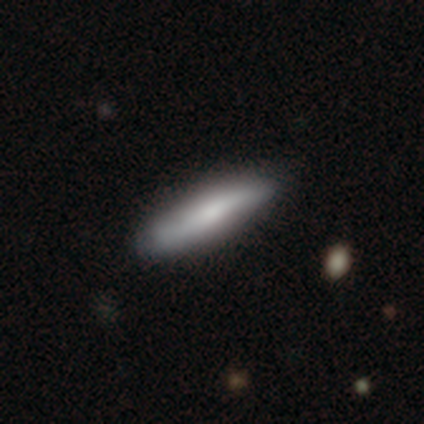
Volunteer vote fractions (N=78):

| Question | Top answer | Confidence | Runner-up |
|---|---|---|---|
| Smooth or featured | smooth | 63% | featured or disk (35%) |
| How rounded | cigar-shaped | 80% | in between (20%) |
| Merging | none | 43% | minor disturbance (4%) |